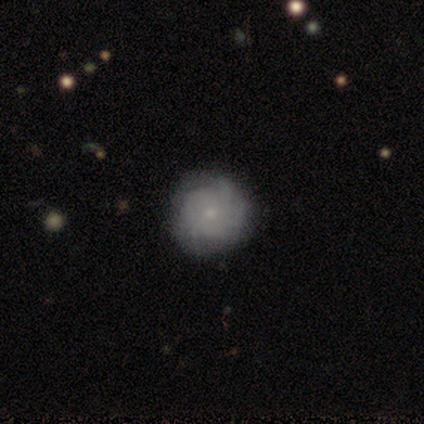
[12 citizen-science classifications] A featured or disk galaxy (75%) with no bar (78%), tight (78%) spiral arms (100%) and a small central bulge (78%).

Vote fractions:
- Smooth or featured? featured or disk: 75% / smooth: 17% / star or artifact: 8%
- Edge-on disk? no: 100% / yes: 0%
- Bar? no: 78% / weak: 22% / strong: 0%
- Spiral arms? yes: 100% / no: 0%
- Spiral winding? tight: 78% / medium: 22% / loose: 0%
- Spiral arm count? can't tell: 44% / 3: 22% / 1: 11% / 4: 11% / more than 4: 11% / 2: 0%
- Bulge size? small: 78% / large: 11% / moderate: 11% / dominant: 0% / none: 0%
- Merging? none: 64% / minor disturbance: 27% / major disturbance: 9% / merger: 0%